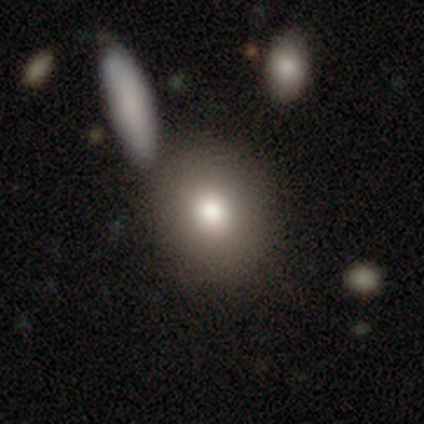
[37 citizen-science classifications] Morphology: type=smooth (84%); roundness=round (68%); merging=none (67%).